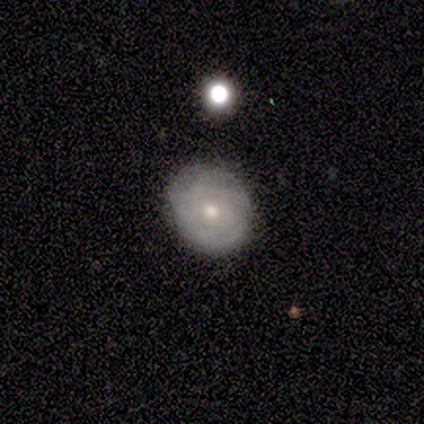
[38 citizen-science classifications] Smooth or featured: featured or disk — 66% (smooth — 26%)
Edge-on disk: no — 96% (yes — 4%)
Bar: no — 83% (weak — 17%)
Spiral arms: no — 54% (yes — 46%)
Bulge size: small — 58% (moderate — 42%)
Merging: none — 74% (minor disturbance — 17%)